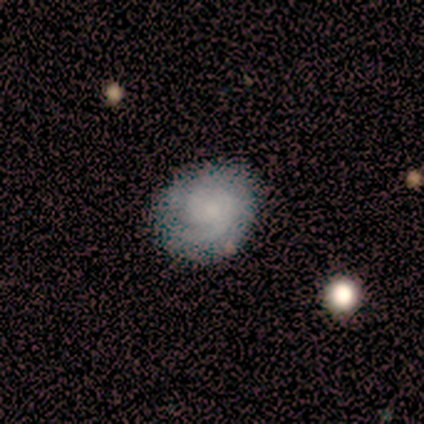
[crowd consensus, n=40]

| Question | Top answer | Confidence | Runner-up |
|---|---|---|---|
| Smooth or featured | featured or disk | 68% | smooth (28%) |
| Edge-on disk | no | 93% | yes (7%) |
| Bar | no | 80% | weak (16%) |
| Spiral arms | yes | 100% | — |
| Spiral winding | tight | 72% | medium (20%) |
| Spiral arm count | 1 | 44% | can't tell (24%) |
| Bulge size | small | 64% | none (24%) |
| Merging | none | 76% | minor disturbance (13%) |